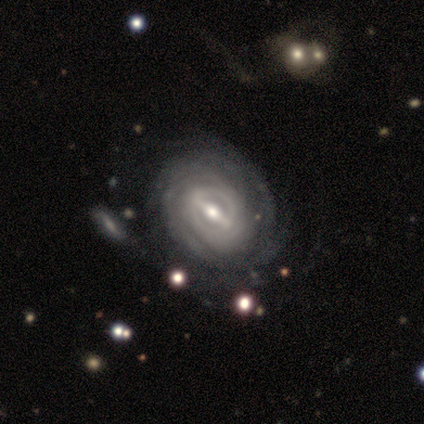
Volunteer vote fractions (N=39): Volunteers were most divided on "spiral arm count": can't tell: 50%, more than 4: 29%, 3: 9%, 2: 6%, 4: 6%, 1: 0%. More confident: smooth or featured — featured or disk (100%); edge-on disk — no (95%); spiral arms — yes (92%); spiral winding — tight (82%); bar — strong (78%); bulge size — moderate (70%); merging — none (59%).